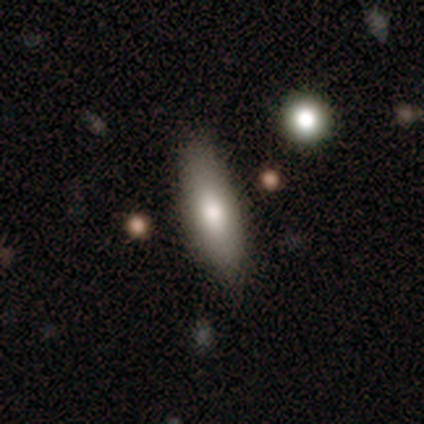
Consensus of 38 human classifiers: smooth_or_featured: smooth (p=0.74) [alt: featured or disk p=0.21]
how_rounded: in between (p=0.64) [alt: cigar-shaped p=0.36]
merging: none (p=0.81) [alt: minor disturbance p=0.17]